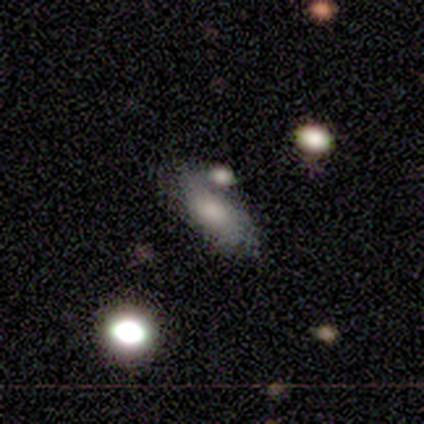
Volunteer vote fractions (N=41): A smooth galaxy with no disk features (68%) that is in between round and cigar-shaped (96%).

Vote fractions:
- Smooth or featured? smooth: 68% / featured or disk: 17% / star or artifact: 15%
- How rounded? in between: 96% / cigar-shaped: 4% / round: 0%
- Merging? none: 40% / minor disturbance: 26% / merger: 23% / major disturbance: 11%